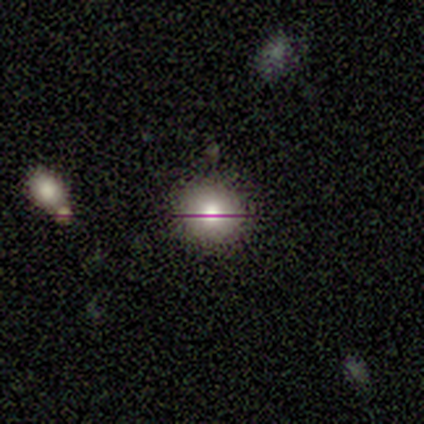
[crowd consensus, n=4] A smooth galaxy with no disk features (75%) that is round (100%). Merging: none (50%, tied with minor disturbance).